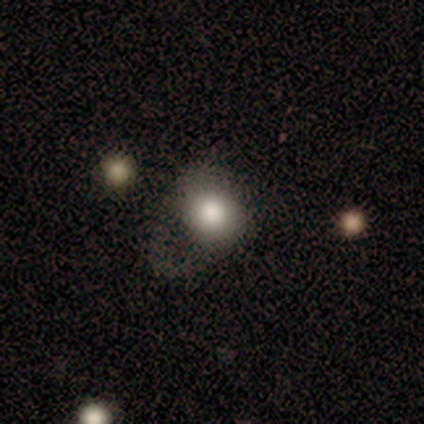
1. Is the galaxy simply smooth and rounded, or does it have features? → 100% smooth, 0% featured or disk, 0% star or artifact.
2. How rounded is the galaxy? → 60% round, 40% in between, 0% cigar-shaped.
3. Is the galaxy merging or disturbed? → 60% none, 20% minor disturbance, 20% major disturbance, 0% merger.